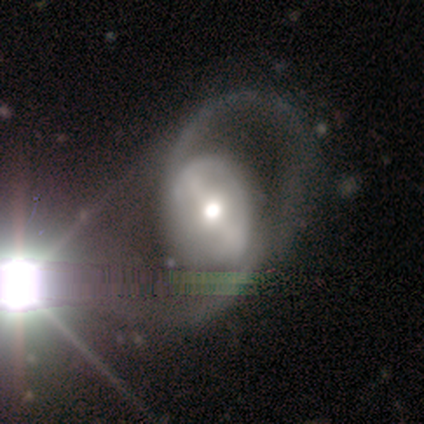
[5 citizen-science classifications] smooth-or-featured: featured or disk: 100% | smooth: 0% | star or artifact: 0%
  disk-edge-on: no: 80% | yes: 20%
    bar: strong: 50% (tied) | weak: 50% (tied) | no: 0%
    has-spiral-arms: yes: 75% | no: 25%
      spiral-winding: loose: 100% | tight: 0% | medium: 0%
      spiral-arm-count: 2: 100% | 1: 0% | 3: 0% | 4: 0% | more than 4: 0% | can't tell: 0%
    bulge-size: moderate: 75% | large: 25% | dominant: 0% | small: 0% | none: 0%
  merging: major disturbance: 60% | none: 20% | minor disturbance: 20% | merger: 0%